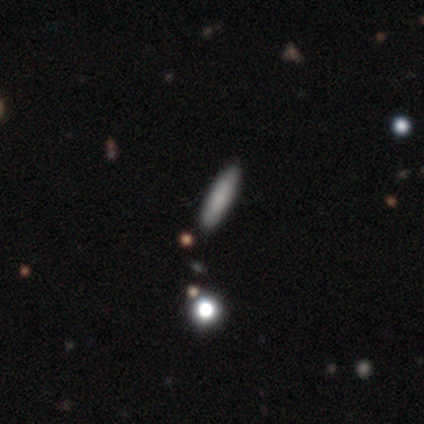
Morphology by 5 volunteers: A smooth galaxy with no disk features (100%) that is in between round and cigar-shaped (40%, tied with cigar-shaped). Merging: none (100%).